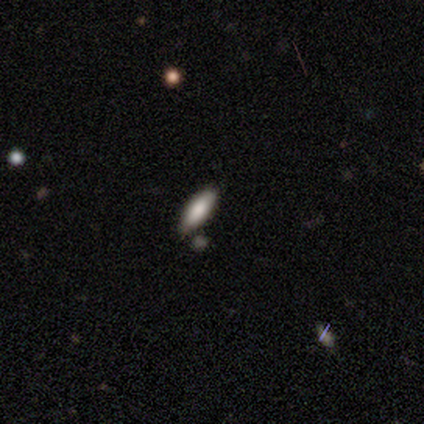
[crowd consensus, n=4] Q: Smooth or featured?
A: smooth (75%); runner-up: featured or disk (25%)
Q: How rounded?
A: cigar-shaped (67%); runner-up: in between (33%)
Q: Merging?
A: none (100%)